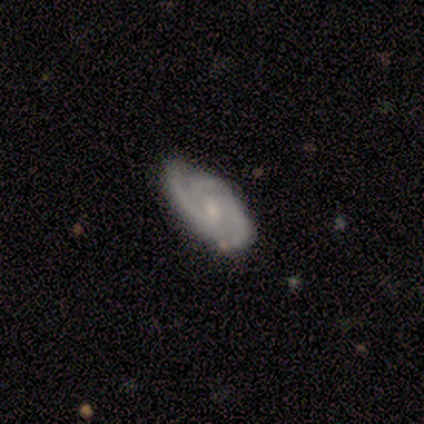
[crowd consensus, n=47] Q: Smooth or featured?
A: featured or disk (87%); runner-up: smooth (9%)
Q: Edge-on disk?
A: no (93%); runner-up: yes (7%)
Q: Bar?
A: no (66%); runner-up: weak (34%)
Q: Spiral arms?
A: yes (95%); runner-up: no (5%)
Q: Spiral winding?
A: tight (64%); runner-up: medium (33%)
Q: Spiral arm count?
A: 3 (47%); runner-up: 2 (39%)
Q: Bulge size?
A: small (55%); runner-up: moderate (26%)
Q: Merging?
A: none (76%); runner-up: minor disturbance (24%)